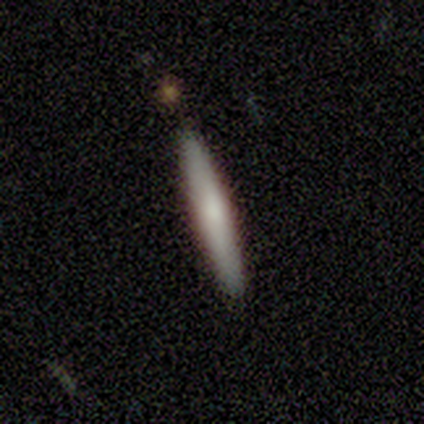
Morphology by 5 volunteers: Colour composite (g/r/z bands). It shows a smooth galaxy with no disk features (80%) that is cigar-shaped (100%). Merging: none (100%).